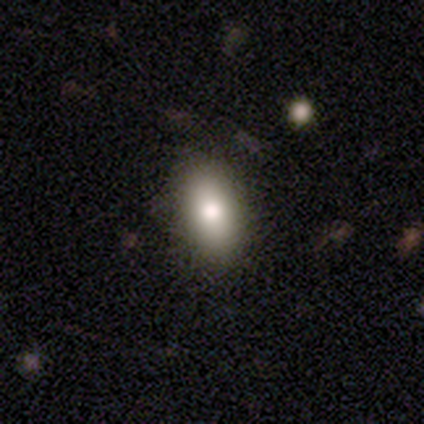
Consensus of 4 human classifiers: smooth 75%, star or artifact 25%, featured or disk 0%. Down the decision tree: how rounded — in between (67%); merging — none (100%).